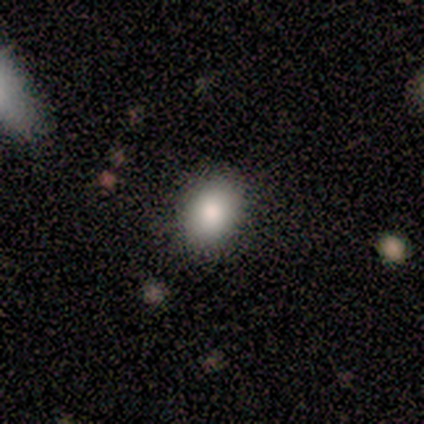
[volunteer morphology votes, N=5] Smooth or featured? 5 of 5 (100%) said smooth. How rounded? 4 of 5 (80%) said in between. Merging? 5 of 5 (100%) said none.